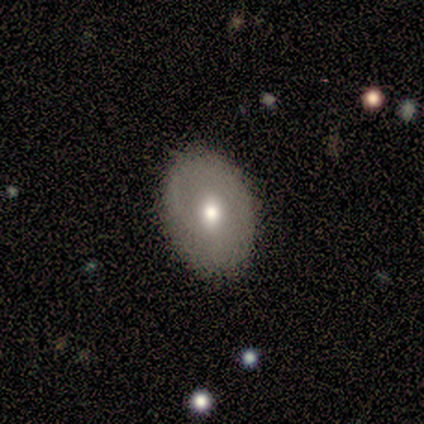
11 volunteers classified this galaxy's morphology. A smooth galaxy with no disk features (64%) that is in between round and cigar-shaped (71%). Merging: none (82%).